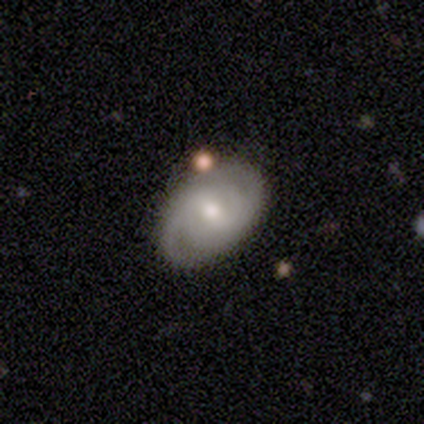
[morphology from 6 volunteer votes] Q: Smooth or featured?
A: smooth (50%); tied with: featured or disk (50%)
Q: How rounded?
A: in between (100%)
Q: Merging?
A: none (67%); runner-up: minor disturbance (17%)